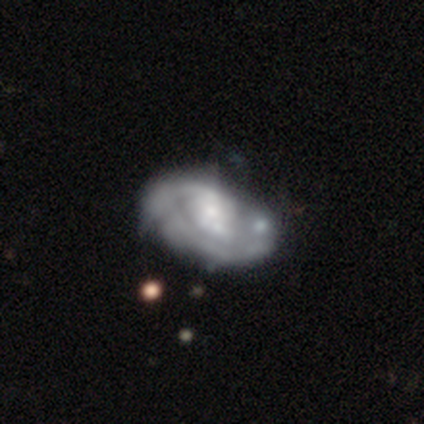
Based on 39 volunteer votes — Overall: featured or disk (74%). Edge-on disk: no (97%). Bar: no (71%). Spiral arms: yes (64%; no 36%). Spiral arm count: can't tell (39%; 1 33%). Spiral winding: tight (72%). Bulge size: small (43%; moderate 32%). Merging: none (53%; minor disturbance 21%).